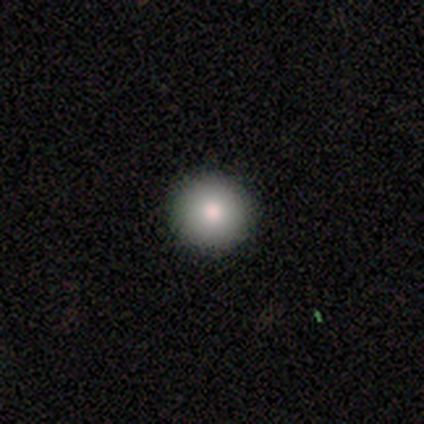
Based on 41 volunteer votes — A smooth galaxy with no disk features (85%) that is round (100%). Merging: none (100%).